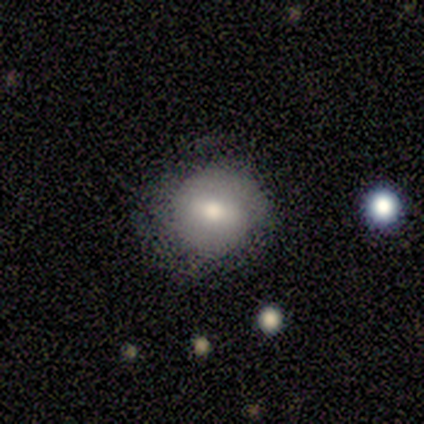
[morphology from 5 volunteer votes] smooth-or-featured: smooth: 100% | featured or disk: 0% | star or artifact: 0%
  how-rounded: round: 100% | in between: 0% | cigar-shaped: 0%
  merging: none: 100% | minor disturbance: 0% | major disturbance: 0% | merger: 0%